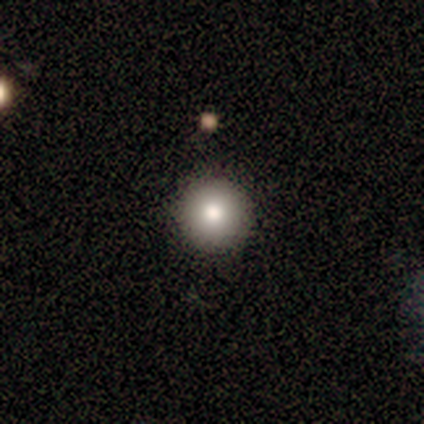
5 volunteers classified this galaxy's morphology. smooth 80%, featured or disk 20%, star or artifact 0%. Down the decision tree: how rounded — round (100%); merging — none (100%).